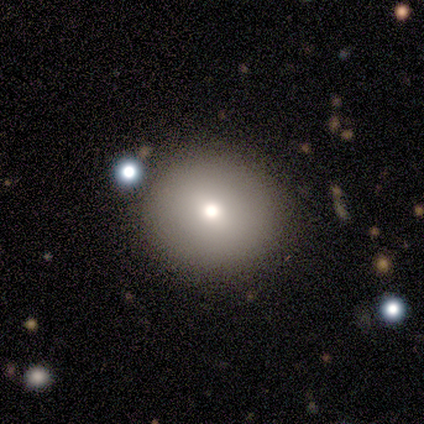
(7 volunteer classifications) A smooth galaxy with no disk features (71%) that is round (100%). Merging: none (86%).